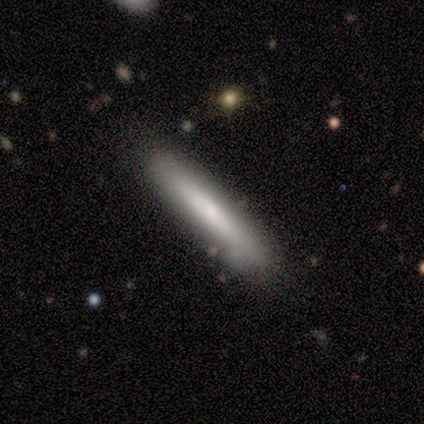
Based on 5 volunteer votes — A smooth galaxy with no disk features (80%) that is cigar-shaped (100%).

Vote fractions:
- Smooth or featured? smooth: 80% / featured or disk: 20% / star or artifact: 0%
- How rounded? cigar-shaped: 100% / round: 0% / in between: 0%
- Merging? none: 60% / minor disturbance: 20% / major disturbance: 20% / merger: 0%